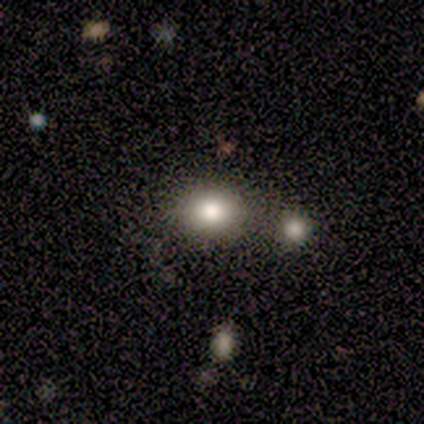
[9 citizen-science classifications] smooth 67%, featured or disk 22%, star or artifact 11%. Down the decision tree: how rounded — round (83%); merging — none (62%).